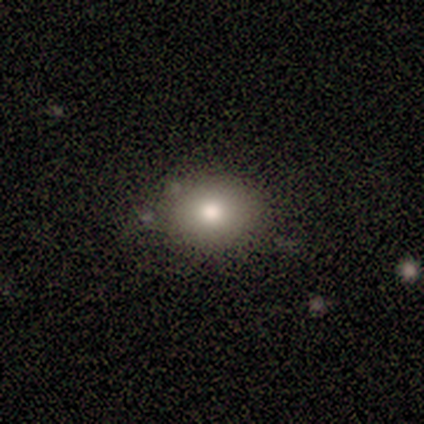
Q: Smooth or featured?
A: smooth (100%)
Q: How rounded?
A: round (50%); tied with: in between (50%)
Q: Merging?
A: none (100%)